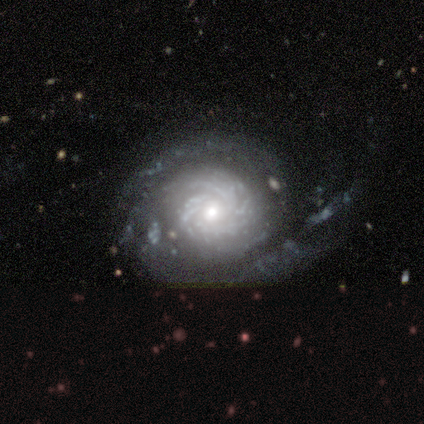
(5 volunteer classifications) Smooth or featured: featured or disk — 100%
Edge-on disk: no — 100%
Bar: no — 100%
Spiral arms: yes — 100%
Spiral winding: tight — 80% (medium — 20%)
Spiral arm count: 3 — 40% (tied with can't tell — 40%)
Bulge size: moderate — 60% (small — 40%)
Merging: none — 60% (minor disturbance — 20%)